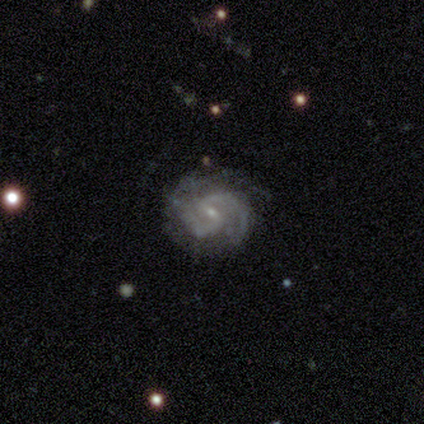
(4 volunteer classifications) Smooth or featured? 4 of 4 (100%) said featured or disk. Edge-on disk? 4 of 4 (100%) said no. Bar? 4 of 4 (100%) said weak. Spiral arms? 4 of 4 (100%) said yes. Spiral winding? 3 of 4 (75%) said medium. Spiral arm count? 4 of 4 (100%) said 2. Bulge size? 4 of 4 (100%) said small. Merging? 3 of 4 (75%) said none.